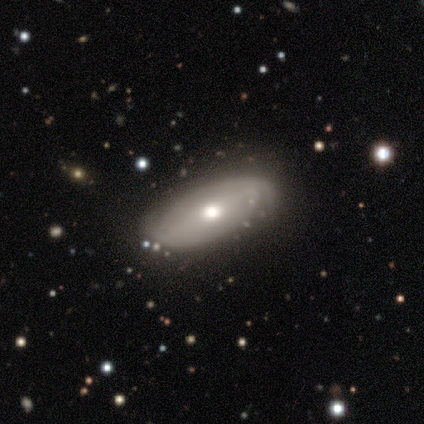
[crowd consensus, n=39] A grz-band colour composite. It shows a featured or disk galaxy (62%) with no bar (61%), 2 (70%) tight (75%) spiral arms (87%) and a moderate central bulge (70%). Merging: none (81%).